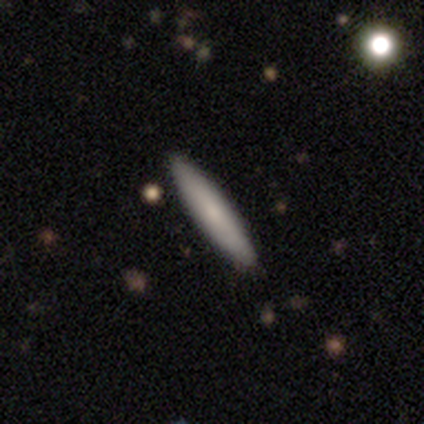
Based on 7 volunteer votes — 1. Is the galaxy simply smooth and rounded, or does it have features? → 57% smooth, 43% featured or disk, 0% star or artifact.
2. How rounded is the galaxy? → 100% cigar-shaped, 0% round, 0% in between.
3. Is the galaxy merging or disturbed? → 100% none, 0% minor disturbance, 0% major disturbance, 0% merger.